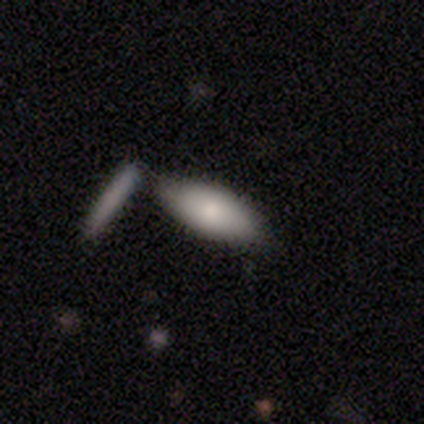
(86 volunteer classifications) This is likely a smooth galaxy (78%). How rounded: likely in between (75%). Merging: likely none (64%).